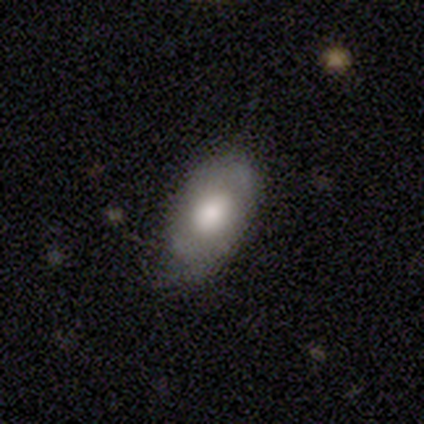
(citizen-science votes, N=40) Q: Smooth or featured?
A: featured or disk (48%); runner-up: smooth (45%)
Q: Edge-on disk?
A: no (95%); runner-up: yes (5%)
Q: Bar?
A: no (89%); runner-up: weak (11%)
Q: Spiral arms?
A: no (67%); runner-up: yes (33%)
Q: Bulge size?
A: large (56%); runner-up: moderate (33%)
Q: Merging?
A: none (57%); runner-up: minor disturbance (38%)